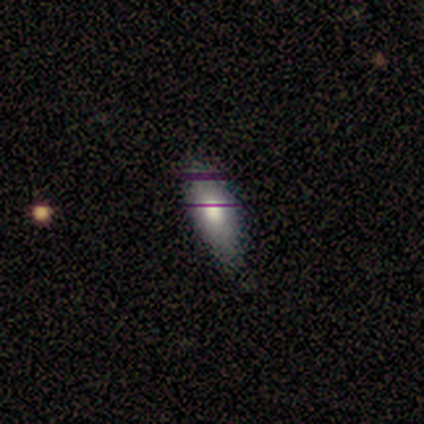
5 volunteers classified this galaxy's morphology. This is clearly a smooth galaxy (100%). How rounded: clearly in between (80%). Merging: clearly none (80%).